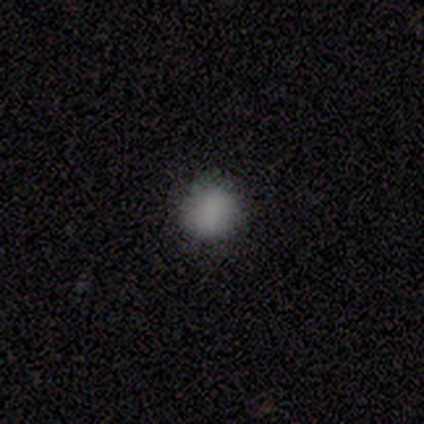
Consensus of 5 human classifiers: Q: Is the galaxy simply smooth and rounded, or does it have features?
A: smooth — 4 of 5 (80%).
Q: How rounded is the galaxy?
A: round — 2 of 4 (50%, tied with in between).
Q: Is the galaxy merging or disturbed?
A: none — 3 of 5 (60%).